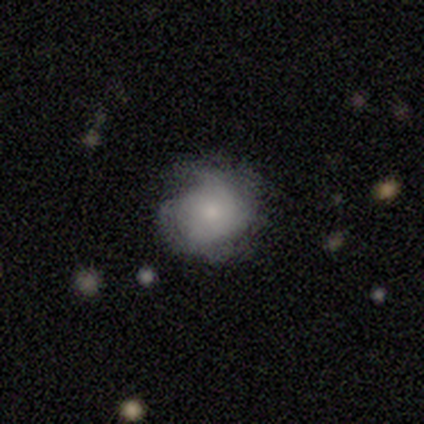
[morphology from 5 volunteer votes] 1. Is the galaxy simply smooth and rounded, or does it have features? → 80% smooth, 20% featured or disk, 0% star or artifact.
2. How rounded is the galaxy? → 75% round, 25% in between, 0% cigar-shaped.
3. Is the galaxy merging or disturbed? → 80% none, 20% minor disturbance, 0% major disturbance, 0% merger.